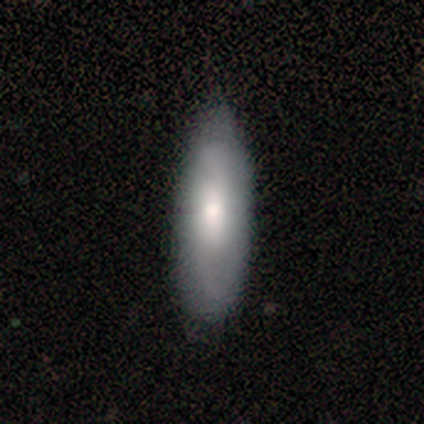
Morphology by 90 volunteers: Q: Smooth or featured?
A: smooth (70%); runner-up: featured or disk (21%)
Q: How rounded?
A: in between (52%); runner-up: cigar-shaped (44%)
Q: Merging?
A: none (68%); runner-up: minor disturbance (29%)